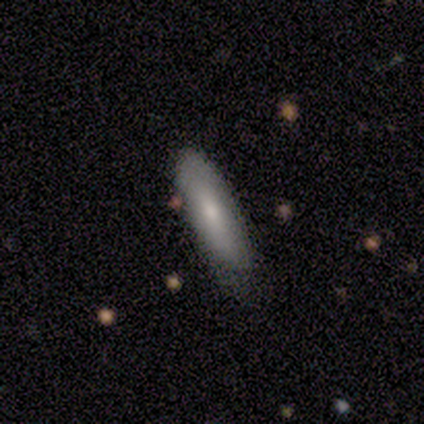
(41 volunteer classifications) Morphology: type=smooth (61%); roundness=cigar-shaped (60%); merging=none (64%).